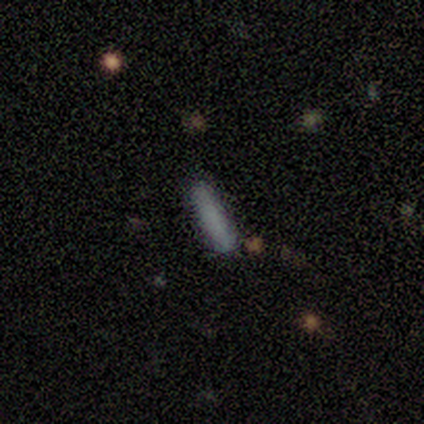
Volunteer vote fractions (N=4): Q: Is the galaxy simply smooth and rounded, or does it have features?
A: smooth — 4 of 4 (100%).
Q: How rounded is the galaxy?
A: cigar-shaped — 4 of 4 (100%).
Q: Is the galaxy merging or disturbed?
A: none — 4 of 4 (100%).